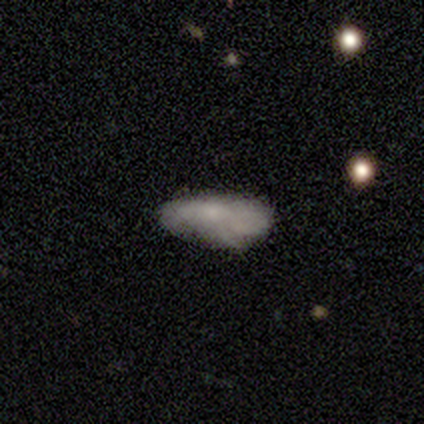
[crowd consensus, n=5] Q: Smooth or featured?
A: smooth (40%); tied with: star or artifact (40%)
Q: How rounded?
A: in between (100%)
Q: Merging?
A: minor disturbance (67%); runner-up: major disturbance (33%)